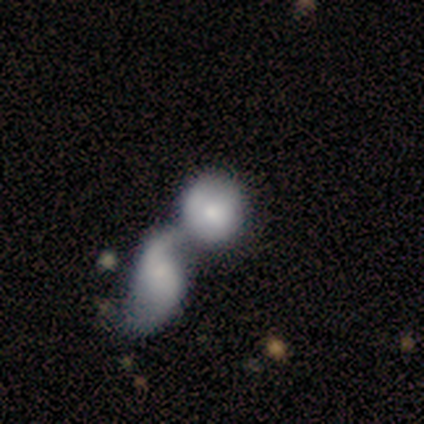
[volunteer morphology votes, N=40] This appears to be a smooth galaxy with no disk features (60%) that is round (67%). Merging: merger (78%).